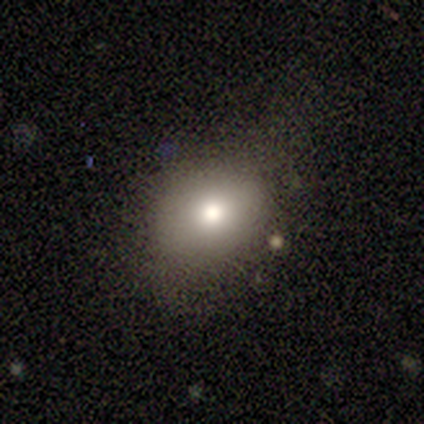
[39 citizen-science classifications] smooth 69%, featured or disk 18%, star or artifact 13%. Down the decision tree: how rounded — round (56%); merging — none (74%).